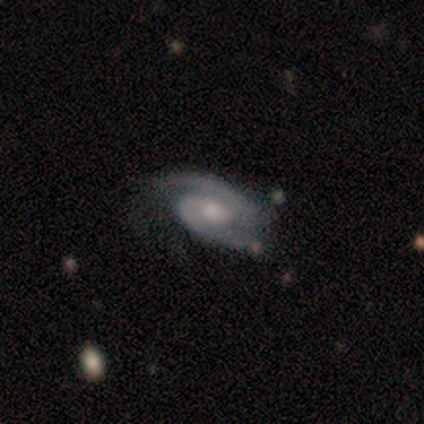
This is clearly a featured or disk galaxy (100%). It is clearly not viewed edge-on (100%). Bar: clearly no (80%). Spiral arm pattern: clearly yes (100%). Spiral arm count: likely 2 (60%). Spiral winding: clearly medium (80%). Central bulge: marginally moderate (40%, tied with small). Merging: clearly none (80%).